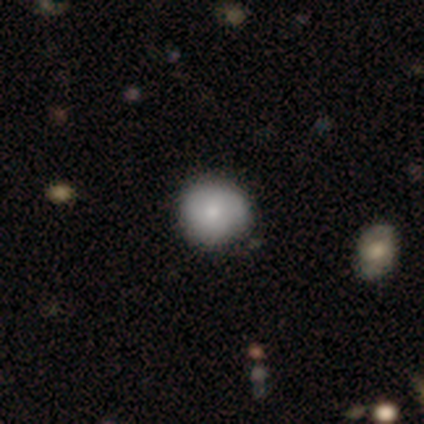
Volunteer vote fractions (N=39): Overall: smooth (74%). How rounded: round (97%). Merging: none (91%).